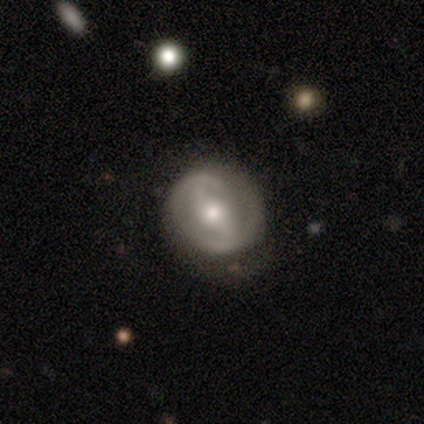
A featured or disk galaxy (87%) with a weak bar (41%), 2 (89%) loose (56%) spiral arms (84%) and a small central bulge (47%).

Vote fractions:
- Smooth or featured? featured or disk: 87% / smooth: 13% / star or artifact: 0%
- Edge-on disk? no: 97% / yes: 3%
- Bar? weak: 41% / no: 34% / strong: 25%
- Spiral arms? yes: 84% / no: 16%
- Spiral winding? loose: 56% / medium: 30% / tight: 15%
- Spiral arm count? 2: 89% / 1: 4% / 3: 4% / can't tell: 4% / 4: 0% / more than 4: 0%
- Bulge size? small: 47% / moderate: 41% / large: 9% / none: 3% / dominant: 0%
- Merging? none: 74% / minor disturbance: 18% / major disturbance: 5% / merger: 3%